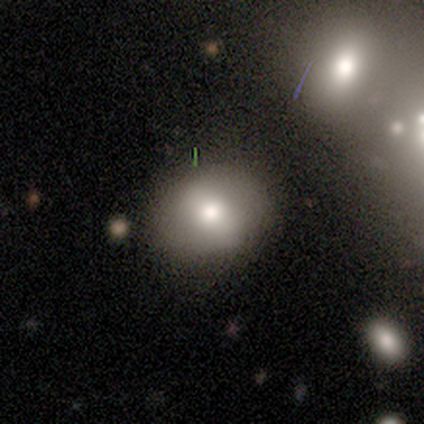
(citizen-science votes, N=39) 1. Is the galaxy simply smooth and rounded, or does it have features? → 77% smooth, 13% featured or disk, 10% star or artifact.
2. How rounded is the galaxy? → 67% round, 33% in between, 0% cigar-shaped.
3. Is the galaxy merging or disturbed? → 71% none, 23% minor disturbance, 6% merger, 0% major disturbance.